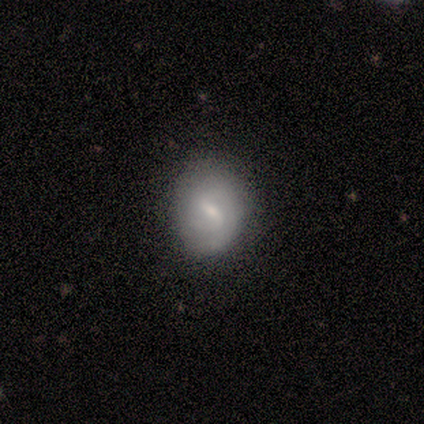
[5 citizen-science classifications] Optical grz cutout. It shows a featured or disk galaxy (60%) with a strong bar (67%), 2 (67%) medium (100%) spiral arms (100%) and a small central bulge (67%). Merging: none (60%).